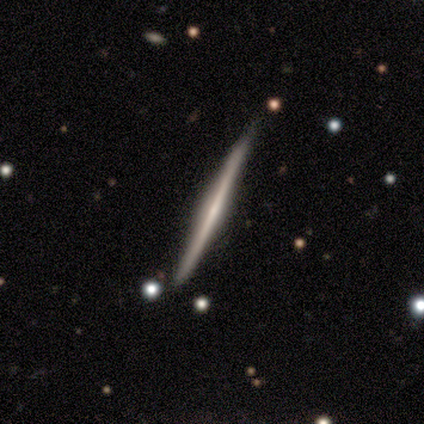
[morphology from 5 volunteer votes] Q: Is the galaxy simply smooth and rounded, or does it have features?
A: smooth — 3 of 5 (60%).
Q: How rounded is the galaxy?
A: cigar-shaped — 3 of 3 (100%).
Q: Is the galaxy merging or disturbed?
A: none — 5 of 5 (100%).